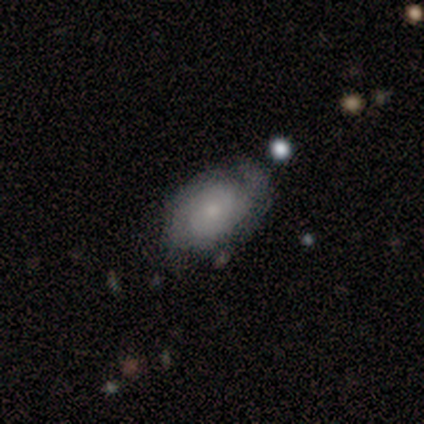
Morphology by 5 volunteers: This appears to be a featured or disk galaxy (80%) with no bar (100%), 2 (75%) tight (50%, tied with medium) spiral arms (100%) and a small central bulge (75%). Merging: minor disturbance (60%).